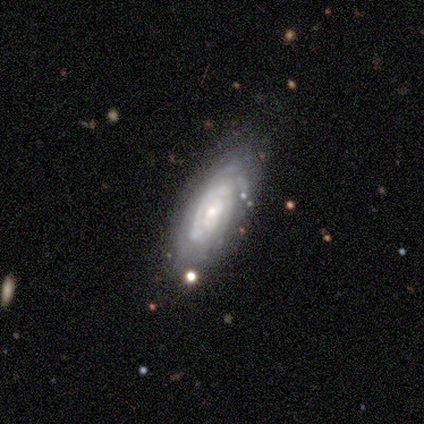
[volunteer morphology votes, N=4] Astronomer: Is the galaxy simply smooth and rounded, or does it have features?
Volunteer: featured or disk — 75%.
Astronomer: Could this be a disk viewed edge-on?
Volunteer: no — 100%.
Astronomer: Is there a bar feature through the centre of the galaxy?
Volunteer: no — 67%.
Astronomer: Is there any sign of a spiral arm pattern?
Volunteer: yes — 100%.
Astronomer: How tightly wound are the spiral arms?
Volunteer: tight — 67%.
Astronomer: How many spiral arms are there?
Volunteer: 2 — 33%, tied with 3 and 4 at 33%.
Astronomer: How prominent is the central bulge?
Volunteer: moderate — 33%, tied with small and none at 33%.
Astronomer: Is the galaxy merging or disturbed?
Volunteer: none — 75%.